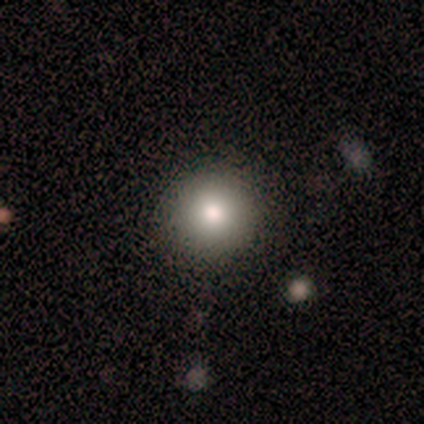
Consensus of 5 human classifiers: This is clearly a smooth galaxy (100%). How rounded: clearly round (100%). Merging: clearly none (80%).